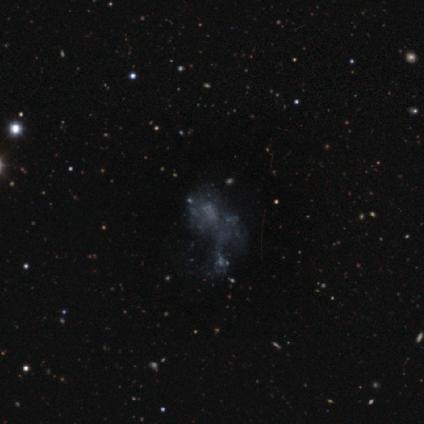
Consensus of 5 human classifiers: Overall: featured or disk (60%; smooth 20%). Edge-on disk: no (100%). Bar: no (100%). Spiral arms: no (100%). Bulge size: none (67%; small 33%). Merging: major disturbance (50%; minor disturbance 25%).